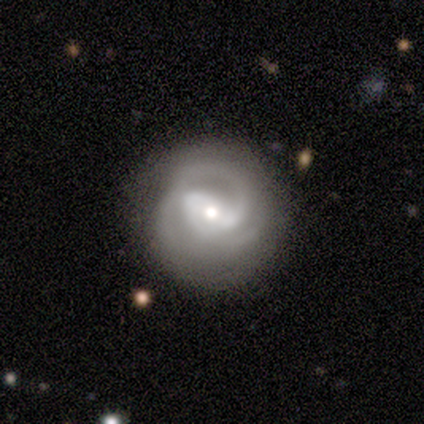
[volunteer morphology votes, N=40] featured or disk 82%, smooth 12%, star or artifact 5%. Down the decision tree: edge-on disk — no (100%); bar — weak (45%); spiral arms — yes (94%); spiral arm count — 2 (35%); spiral winding — tight (48%); bulge size — moderate (45%, tied with small); merging — none (76%).